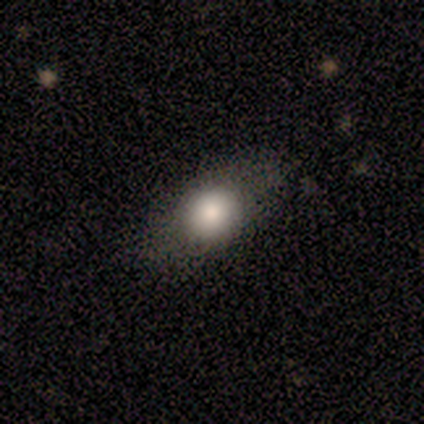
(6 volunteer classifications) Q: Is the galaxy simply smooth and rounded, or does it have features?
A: smooth — 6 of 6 (100%).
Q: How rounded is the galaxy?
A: round — 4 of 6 (67%).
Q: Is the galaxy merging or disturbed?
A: none — 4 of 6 (67%).